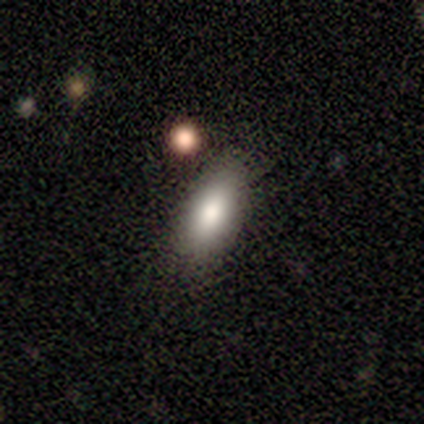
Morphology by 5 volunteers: smooth-or-featured: smooth: 80% | featured or disk: 20% | star or artifact: 0%
  how-rounded: in between: 75% | cigar-shaped: 25% | round: 0%
  merging: none: 100% | minor disturbance: 0% | major disturbance: 0% | merger: 0%